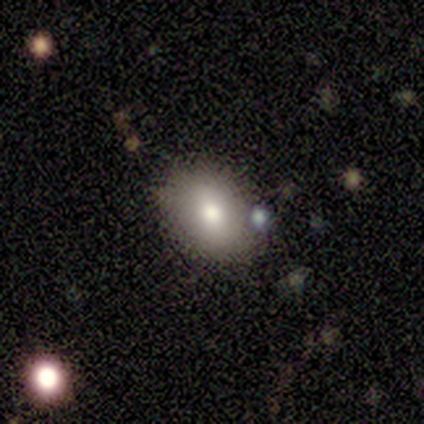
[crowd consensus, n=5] smooth 100%, featured or disk 0%, star or artifact 0%. Down the decision tree: how rounded — in between (80%); merging — none (40%, tied with minor disturbance).